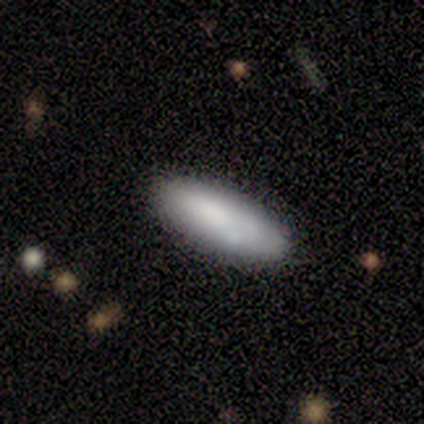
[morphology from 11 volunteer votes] This appears to be a smooth galaxy with no disk features (100%) that is in between round and cigar-shaped (55%). Merging: none (73%).